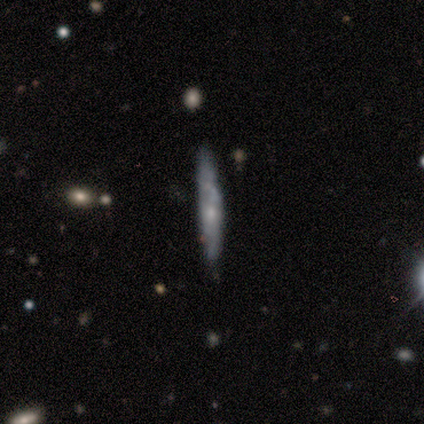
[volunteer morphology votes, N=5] Smooth or featured? smooth (80%)
How rounded? cigar-shaped (100%)
Merging? none (80%)